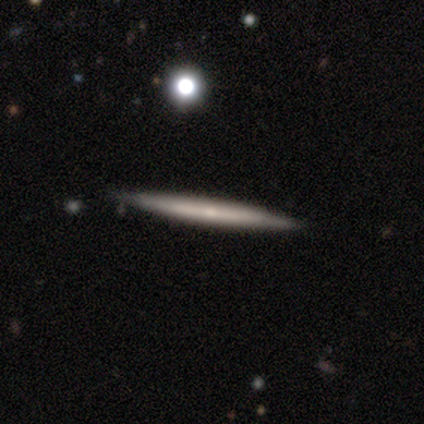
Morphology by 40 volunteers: This appears to be a featured or disk galaxy (48%) viewed edge-on (95%) with no central bulge (78%). Merging: none (95%).